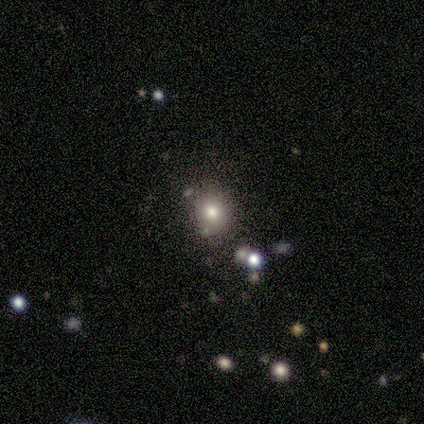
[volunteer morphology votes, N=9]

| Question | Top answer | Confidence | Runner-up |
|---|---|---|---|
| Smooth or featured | smooth | 100% | — |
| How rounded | round | 89% | in between (11%) |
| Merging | none | 78% | major disturbance (22%) |